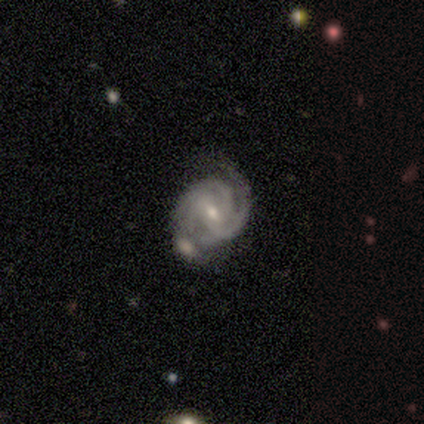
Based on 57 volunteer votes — This is clearly a featured or disk galaxy (88%). It is clearly not viewed edge-on (100%). Bar: likely weak (60%). Spiral arm pattern: clearly yes (98%). Spiral arm count: marginally 3 (41%). Spiral winding: possibly tight (53%). Central bulge: possibly small (52%). Merging: marginally none (36%).